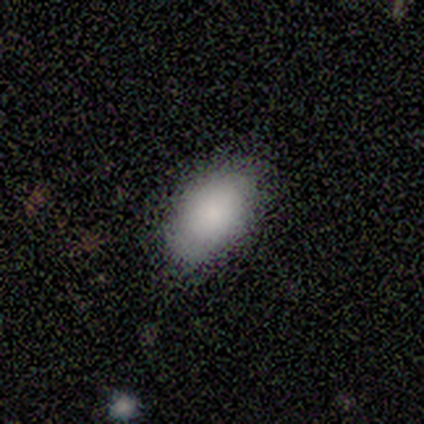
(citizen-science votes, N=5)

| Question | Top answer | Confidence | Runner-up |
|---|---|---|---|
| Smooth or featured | smooth | 100% | — |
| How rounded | in between | 100% | — |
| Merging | none | 100% | — |